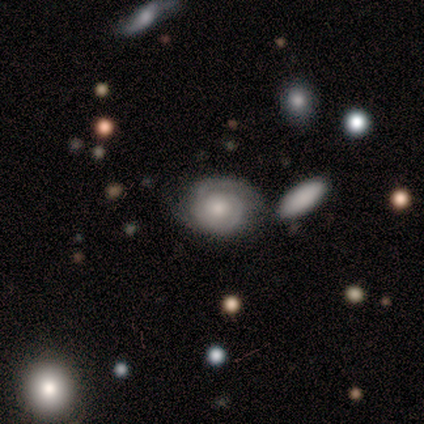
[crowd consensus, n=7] Smooth or featured: featured or disk — 86% (smooth — 14%)
Edge-on disk: no — 100%
Bar: no — 100%
Spiral arms: yes — 83% (no — 17%)
Spiral winding: tight — 100%
Spiral arm count: 2 — 80% (1 — 20%)
Bulge size: small — 50% (moderate — 33%)
Merging: none — 100%